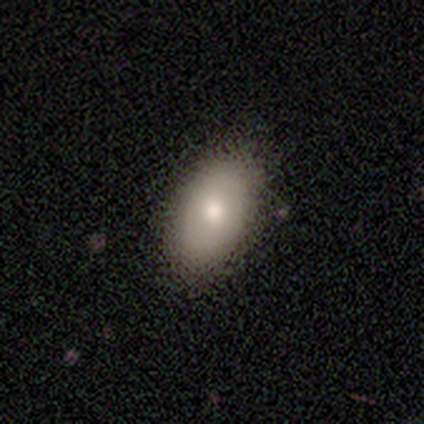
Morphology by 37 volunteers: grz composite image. It shows a smooth galaxy with no disk features (62%) that is in between round and cigar-shaped (87%). Merging: none (91%).